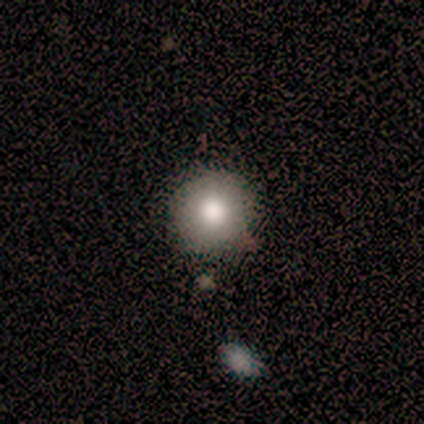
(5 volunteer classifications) Smooth or featured?
  - smooth: 80% *
  - star or artifact: 20%
  - featured or disk: 0%
How rounded?
  - round: 100% *
  - in between: 0%
  - cigar-shaped: 0%
Merging?
  - none: 100% *
  - minor disturbance: 0%
  - major disturbance: 0%
  - merger: 0%